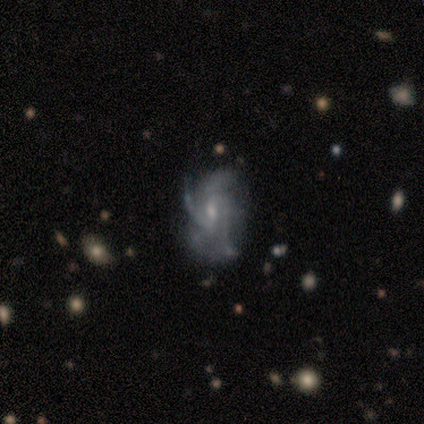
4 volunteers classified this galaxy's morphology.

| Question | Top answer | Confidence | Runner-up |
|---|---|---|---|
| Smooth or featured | featured or disk | 100% | — |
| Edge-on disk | no | 100% | — |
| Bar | no | 75% | weak (25%) |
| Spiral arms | yes | 100% | — |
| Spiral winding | medium | 50% | tight (25%) |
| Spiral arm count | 2 | 25% | tied: 3 (25%), more than 4 (25%), can't tell (25%) |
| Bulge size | small | 75% | none (25%) |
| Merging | none | 75% | minor disturbance (25%) |